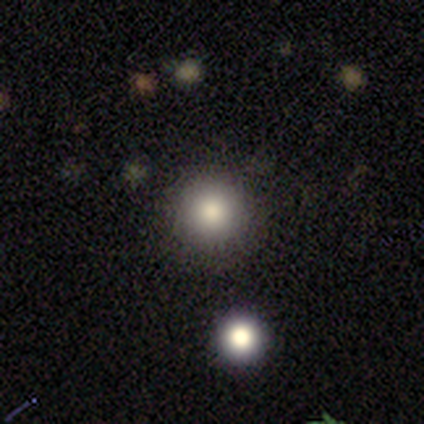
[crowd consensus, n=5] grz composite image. It shows a smooth galaxy with no disk features (40%, tied with star or artifact) that is round (50%, tied with in between). Merging: none (100%).